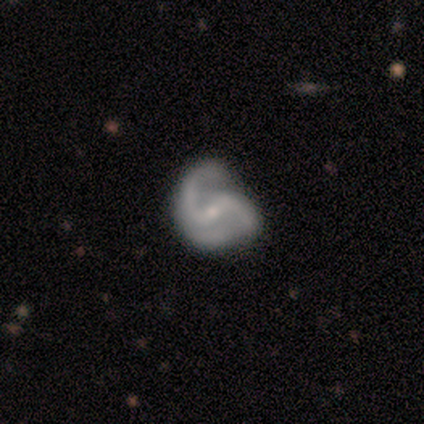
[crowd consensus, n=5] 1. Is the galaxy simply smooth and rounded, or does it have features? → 100% featured or disk, 0% smooth, 0% star or artifact.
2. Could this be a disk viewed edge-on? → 100% no, 0% yes.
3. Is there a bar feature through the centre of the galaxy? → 40% weak (tied), 40% no (tied), 20% strong.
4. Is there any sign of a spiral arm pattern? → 100% yes, 0% no.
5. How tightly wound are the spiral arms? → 80% medium, 20% loose, 0% tight.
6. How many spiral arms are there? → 100% 2, 0% 1, 0% 3, 0% 4, 0% more than 4, 0% can't tell.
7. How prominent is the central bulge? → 100% small, 0% dominant, 0% large, 0% moderate, 0% none.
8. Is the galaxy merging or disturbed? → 60% minor disturbance, 40% none, 0% major disturbance, 0% merger.